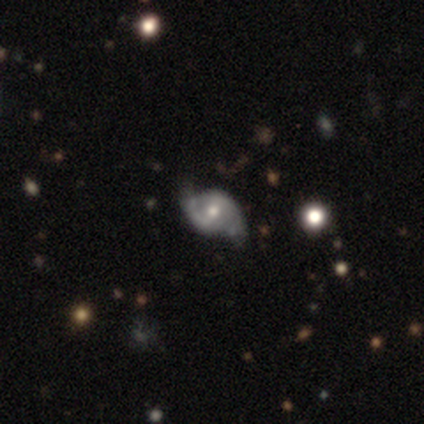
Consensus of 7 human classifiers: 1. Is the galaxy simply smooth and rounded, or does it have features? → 86% featured or disk, 14% smooth, 0% star or artifact.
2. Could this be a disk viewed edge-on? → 100% no, 0% yes.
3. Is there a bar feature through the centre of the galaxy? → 83% weak, 17% no, 0% strong.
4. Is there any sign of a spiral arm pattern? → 100% yes, 0% no.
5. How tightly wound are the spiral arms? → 50% loose, 33% medium, 17% tight.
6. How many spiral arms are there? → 83% 2, 17% can't tell, 0% 1, 0% 3, 0% 4, 0% more than 4.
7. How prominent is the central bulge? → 50% small, 33% moderate, 17% large, 0% dominant, 0% none.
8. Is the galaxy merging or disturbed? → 86% none, 14% minor disturbance, 0% major disturbance, 0% merger.